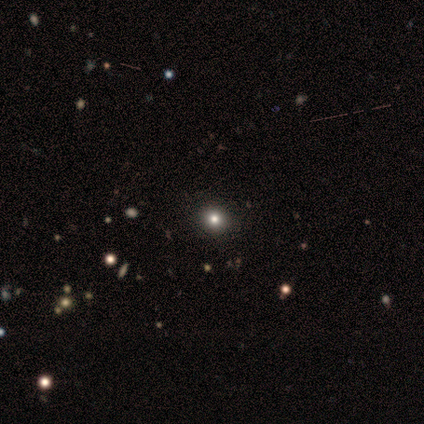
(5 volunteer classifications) smooth_or_featured: smooth (p=0.60) [alt: featured or disk p=0.20]
how_rounded: round (p=1.00)
merging: none (p=1.00)